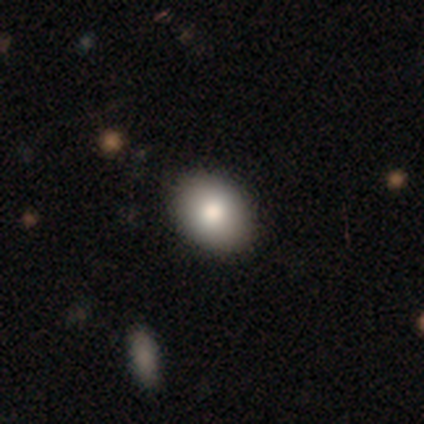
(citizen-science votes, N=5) This is clearly a smooth galaxy (80%). How rounded: possibly round (50%, tied with in between). Merging: clearly none (100%).